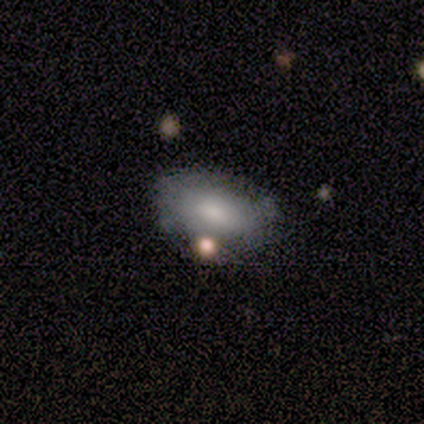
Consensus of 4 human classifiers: smooth-or-featured: smooth: 75% | featured or disk: 25% | star or artifact: 0%
  how-rounded: in between: 100% | round: 0% | cigar-shaped: 0%
  merging: minor disturbance: 50% | none: 25% | merger: 25% | major disturbance: 0%